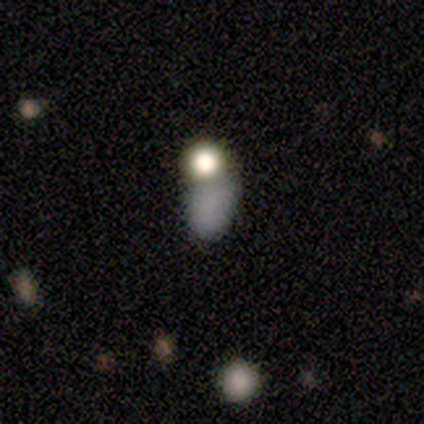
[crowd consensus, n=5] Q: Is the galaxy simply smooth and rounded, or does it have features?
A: star or artifact — 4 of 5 (80%).